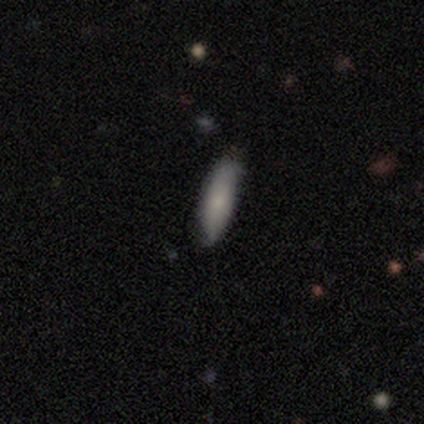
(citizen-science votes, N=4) Smooth or featured? smooth (75%)
How rounded? in between (67%)
Merging? none (100%)